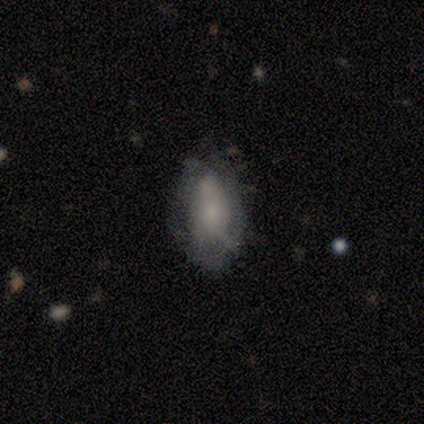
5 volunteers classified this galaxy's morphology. smooth-or-featured: smooth: 80% | featured or disk: 20% | star or artifact: 0%
  how-rounded: in between: 100% | round: 0% | cigar-shaped: 0%
  merging: none: 60% | minor disturbance: 40% | major disturbance: 0% | merger: 0%